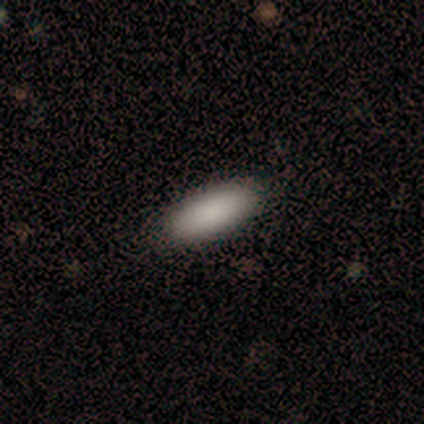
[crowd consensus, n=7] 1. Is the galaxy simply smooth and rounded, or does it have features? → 100% smooth, 0% featured or disk, 0% star or artifact.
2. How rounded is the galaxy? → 100% in between, 0% round, 0% cigar-shaped.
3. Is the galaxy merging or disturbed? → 100% none, 0% minor disturbance, 0% major disturbance, 0% merger.